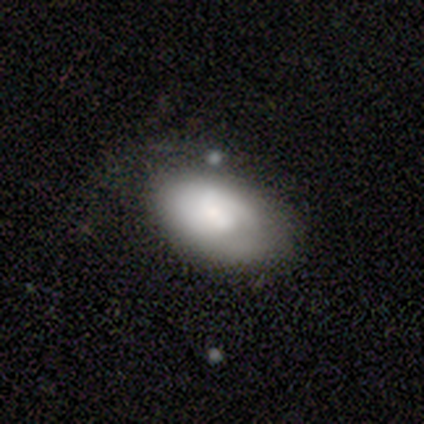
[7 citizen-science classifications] Morphology: type=smooth (71%); roundness=in between (80%); merging=minor disturbance (83%).